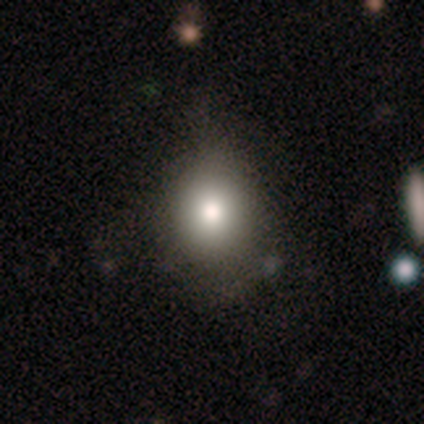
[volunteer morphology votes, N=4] Smooth or featured? smooth (100%)
How rounded? round (50%, tied with in between)
Merging? none (100%)